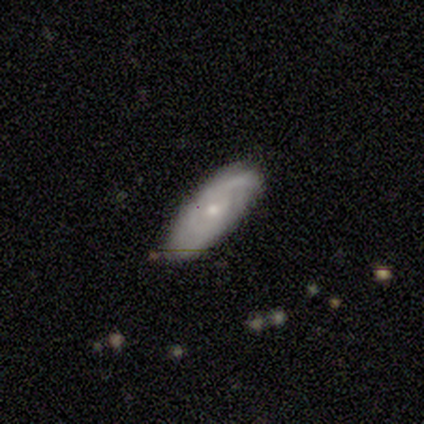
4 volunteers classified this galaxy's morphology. A smooth galaxy with no disk features (75%) that is in between round and cigar-shaped (67%). Merging: none (75%).